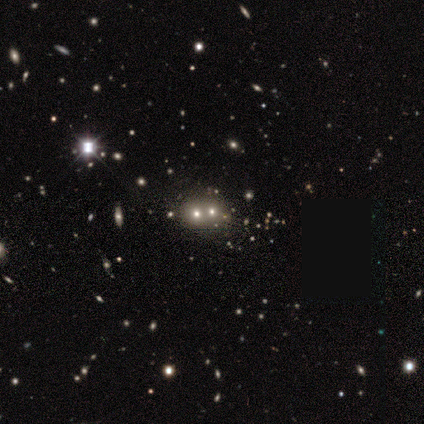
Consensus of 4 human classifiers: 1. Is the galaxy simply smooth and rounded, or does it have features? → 75% smooth, 25% star or artifact, 0% featured or disk.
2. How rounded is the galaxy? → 100% round, 0% in between, 0% cigar-shaped.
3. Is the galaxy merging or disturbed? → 100% merger, 0% none, 0% minor disturbance, 0% major disturbance.